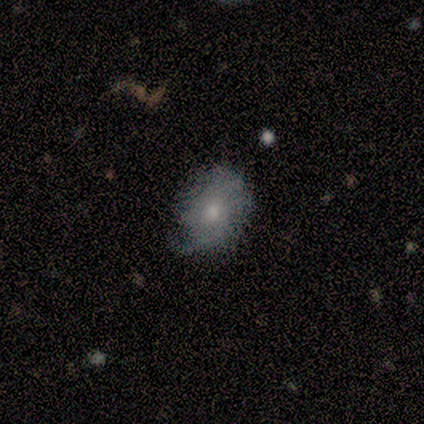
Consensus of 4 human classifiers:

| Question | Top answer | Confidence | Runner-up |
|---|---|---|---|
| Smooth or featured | smooth | 100% | — |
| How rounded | in between | 75% | round (25%) |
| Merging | none | 50% | tied: minor disturbance (50%) |